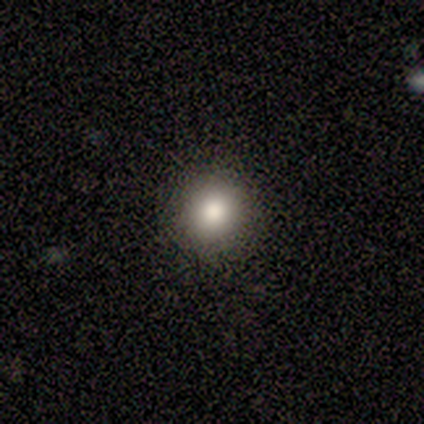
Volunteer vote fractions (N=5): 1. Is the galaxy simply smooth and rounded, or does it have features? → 80% smooth, 20% featured or disk, 0% star or artifact.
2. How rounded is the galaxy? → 75% round, 25% in between, 0% cigar-shaped.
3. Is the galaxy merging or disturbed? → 100% none, 0% minor disturbance, 0% major disturbance, 0% merger.